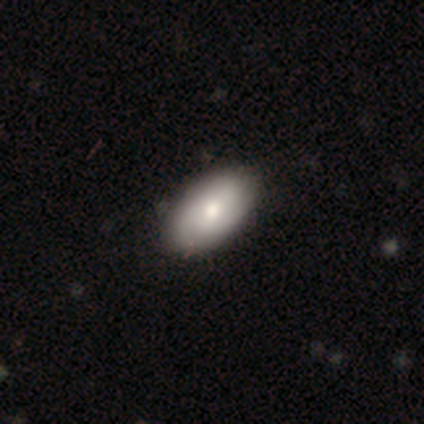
smooth-or-featured: smooth: 69% | featured or disk: 17% | star or artifact: 14%
  how-rounded: in between: 100% | round: 0% | cigar-shaped: 0%
  merging: none: 90% | minor disturbance: 3% | major disturbance: 3% | merger: 3%